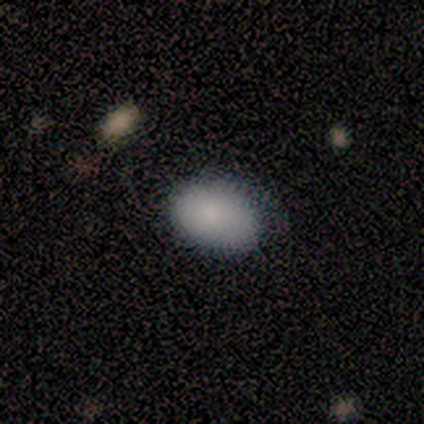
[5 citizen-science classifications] Q: Smooth or featured?
A: smooth (100%)
Q: How rounded?
A: in between (100%)
Q: Merging?
A: none (80%); runner-up: minor disturbance (20%)